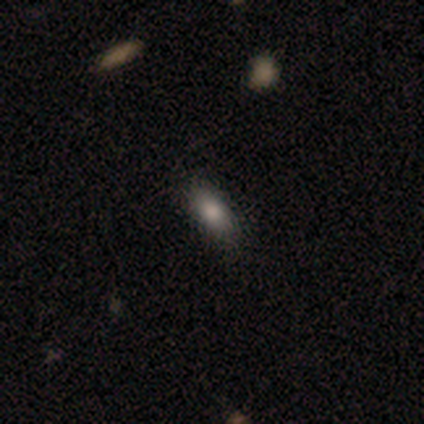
smooth_or_featured: smooth (p=1.00)
how_rounded: in between (p=1.00)
merging: none (p=1.00)